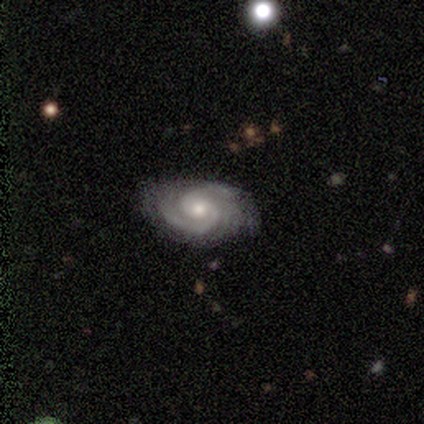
Volunteers were most divided on "bar" (2-way tie): weak: 40%, no: 40%, strong: 20%. More confident: smooth or featured — featured or disk (100%); edge-on disk — no (100%); spiral arms — yes (100%); bulge size — moderate (80%); spiral winding — tight (60%); merging — none (60%); spiral arm count — 2 (60%).